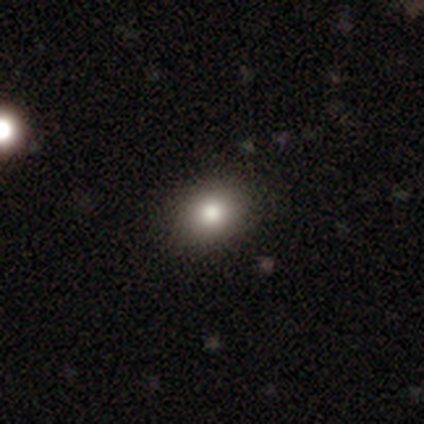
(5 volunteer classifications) Overall: smooth (60%; featured or disk 20%). How rounded: round (67%; in between 33%). Merging: none (100%).